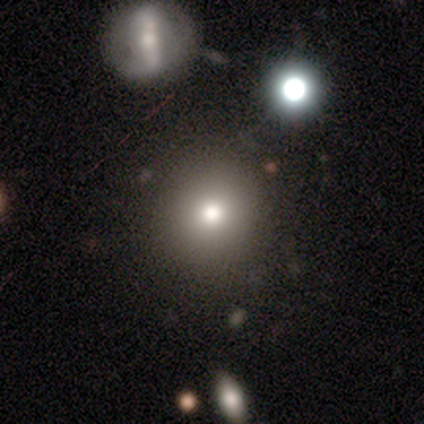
smooth-or-featured: star or artifact: 60% | smooth: 40% | featured or disk: 0%